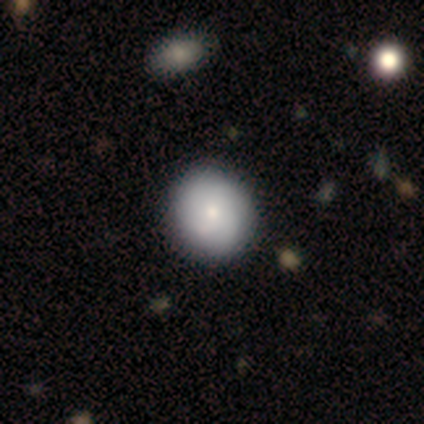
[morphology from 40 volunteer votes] Smooth or featured? smooth (68%)
How rounded? round (96%)
Merging? none (68%)